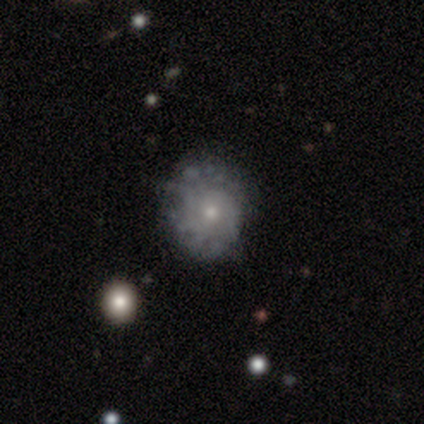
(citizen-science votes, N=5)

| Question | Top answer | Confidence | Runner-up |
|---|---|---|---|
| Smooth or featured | featured or disk | 100% | — |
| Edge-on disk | no | 100% | — |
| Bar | no | 100% | — |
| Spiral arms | yes | 60% | no (40%) |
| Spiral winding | tight | 100% | — |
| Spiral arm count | can't tell | 67% | more than 4 (33%) |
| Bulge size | small | 80% | moderate (20%) |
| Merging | none | 80% | minor disturbance (20%) |